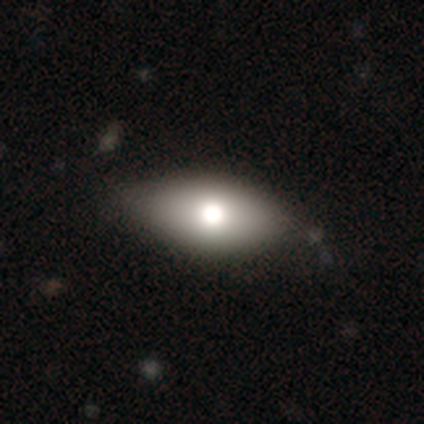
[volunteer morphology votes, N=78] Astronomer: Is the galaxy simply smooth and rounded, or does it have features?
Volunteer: smooth — 71%.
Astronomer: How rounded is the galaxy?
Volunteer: in between — 87%.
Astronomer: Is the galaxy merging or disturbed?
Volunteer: none — 42%.